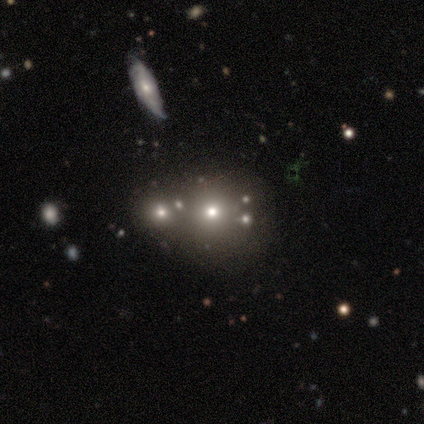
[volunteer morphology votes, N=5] Overall: smooth (60%; star or artifact 40%). How rounded: round (67%; in between 33%). Merging: merger (100%).